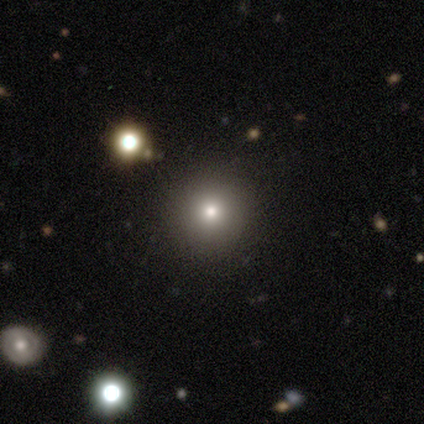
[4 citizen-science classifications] This is likely a smooth galaxy (75%). How rounded: clearly round (100%). Merging: clearly none (100%).